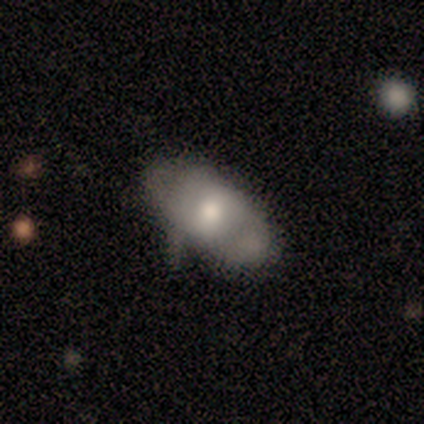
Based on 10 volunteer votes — A smooth galaxy with no disk features (70%) that is in between round and cigar-shaped (100%). Merging: none (56%).